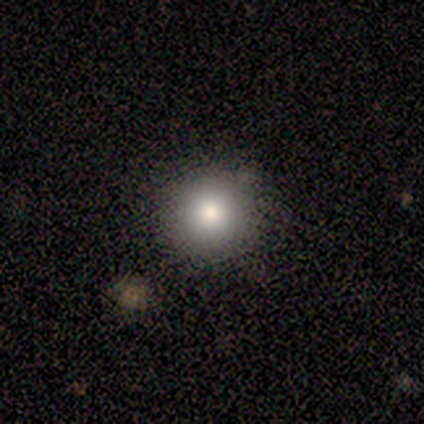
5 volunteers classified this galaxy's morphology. type=smooth (100%); roundness=round (80%); merging=none (100%).